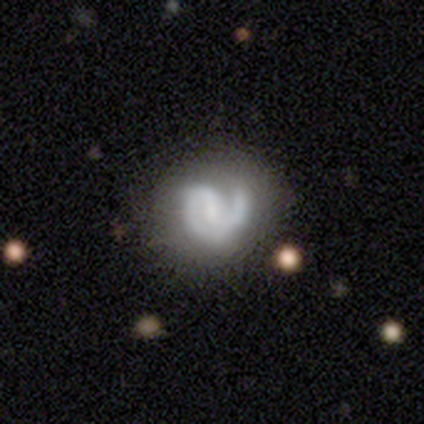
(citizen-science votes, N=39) Volunteers were most divided on "spiral arm count": 2: 53%, 1: 44%, 3: 3%, 4: 0%, more than 4: 0%, can't tell: 0%. Remaining: edge-on disk — no (100%); spiral arms — yes (94%); smooth or featured — featured or disk (87%); merging — none (71%); bar — weak (62%); spiral winding — tight (59%); bulge size — none (47%).